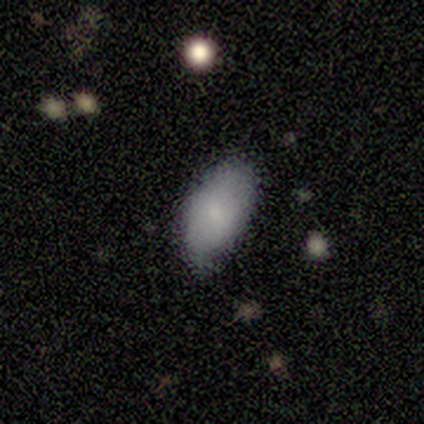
Overall: smooth (100%). How rounded: in between (100%). Merging: none (80%).